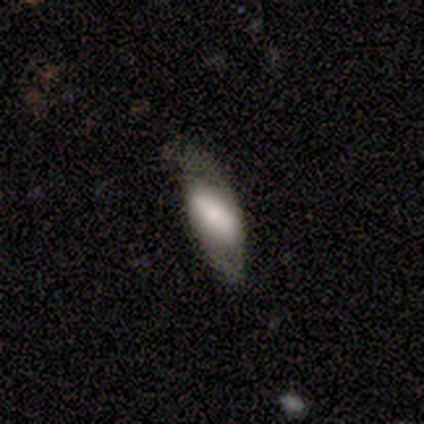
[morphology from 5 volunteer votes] Q: Smooth or featured?
A: smooth (80%); runner-up: featured or disk (20%)
Q: How rounded?
A: in between (100%)
Q: Merging?
A: none (60%); runner-up: minor disturbance (40%)